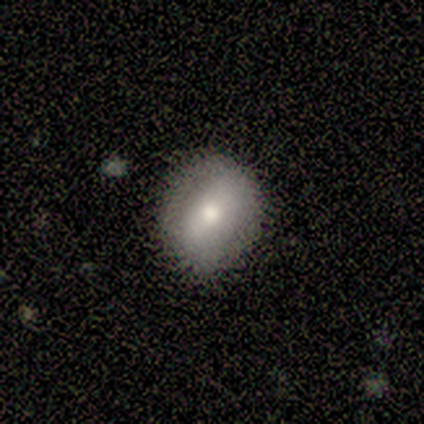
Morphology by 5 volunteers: Smooth or featured?
  - smooth: 80% *
  - star or artifact: 20%
  - featured or disk: 0%
How rounded?
  - round: 75% *
  - in between: 25%
  - cigar-shaped: 0%
Merging?
  - none: 75% *
  - major disturbance: 25%
  - minor disturbance: 0%
  - merger: 0%